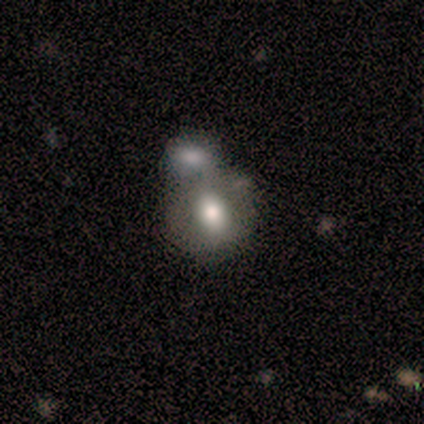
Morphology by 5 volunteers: smooth_or_featured: smooth (p=1.00)
how_rounded: round (p=0.80) [alt: in between p=0.20]
merging: none (p=0.60) [alt: merger p=0.40]